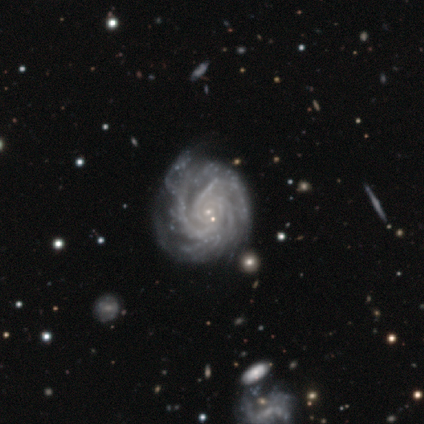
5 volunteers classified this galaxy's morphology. smooth-or-featured: featured or disk: 80% | star or artifact: 20% | smooth: 0%
  disk-edge-on: no: 75% | yes: 25%
    bar: no: 100% | strong: 0% | weak: 0%
    has-spiral-arms: yes: 100% | no: 0%
      spiral-winding: tight: 100% | medium: 0% | loose: 0%
      spiral-arm-count: 3: 33% (tied) | more than 4: 33% (tied) | can't tell: 33% (tied) | 1: 0% | 2: 0% | 4: 0%
    bulge-size: small: 67% | moderate: 33% | dominant: 0% | large: 0% | none: 0%
  merging: none: 75% | minor disturbance: 25% | major disturbance: 0% | merger: 0%